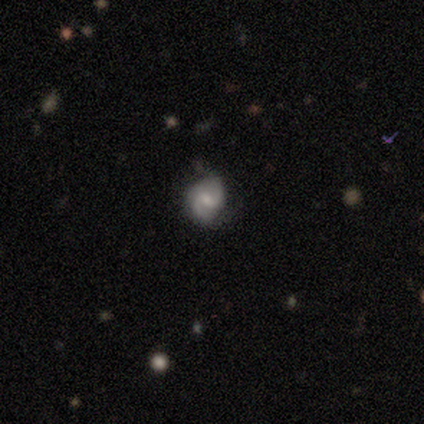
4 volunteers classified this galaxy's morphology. type=featured or disk (100%); edge-on=no (100%); bar=weak (50%); spiral arms=yes (100%); winding=loose (50%); arm count=2 (100%); bulge=small (50%); merging=none (100%).